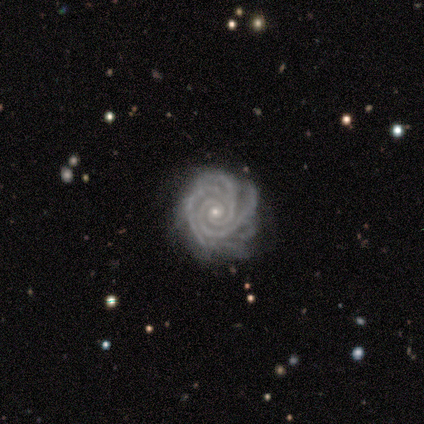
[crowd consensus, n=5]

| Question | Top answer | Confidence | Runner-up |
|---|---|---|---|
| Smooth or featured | featured or disk | 100% | — |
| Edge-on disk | no | 100% | — |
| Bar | no | 100% | — |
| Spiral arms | yes | 100% | — |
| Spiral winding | tight | 100% | — |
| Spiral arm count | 2 | 60% | 3 (20%) |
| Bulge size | small | 80% | moderate (20%) |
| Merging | none | 60% | minor disturbance (40%) |